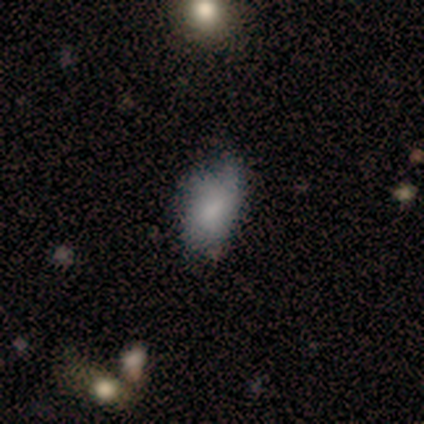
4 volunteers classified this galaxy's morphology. type=featured or disk (50%); edge-on=no (100%); bar=no (100%); spiral arms=yes (50%, tied with no); winding=medium (100%); arm count=2 (100%); bulge=none (100%); merging=minor disturbance (33%, tied with major disturbance and merger).